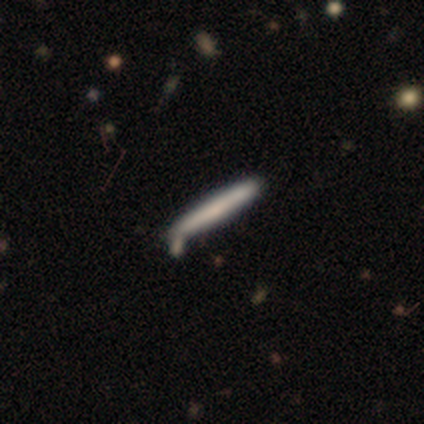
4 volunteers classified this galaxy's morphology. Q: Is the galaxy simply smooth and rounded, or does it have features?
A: smooth — 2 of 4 (50%, tied with featured or disk).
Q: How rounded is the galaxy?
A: cigar-shaped — 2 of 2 (100%).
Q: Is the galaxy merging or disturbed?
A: none — 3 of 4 (75%).